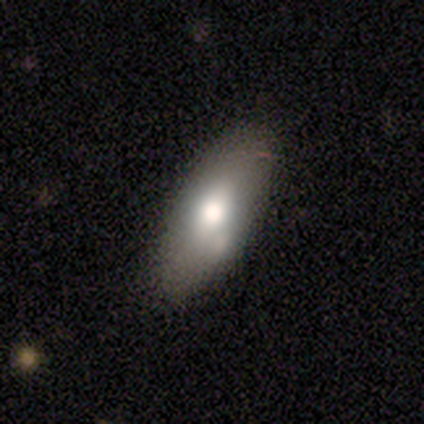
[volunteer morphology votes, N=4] Smooth or featured?
  - smooth: 100% *
  - featured or disk: 0%
  - star or artifact: 0%
How rounded?
  - in between: 100% *
  - round: 0%
  - cigar-shaped: 0%
Merging?
  - none: 50% * (tied)
  - minor disturbance: 50% * (tied)
  - major disturbance: 0%
  - merger: 0%